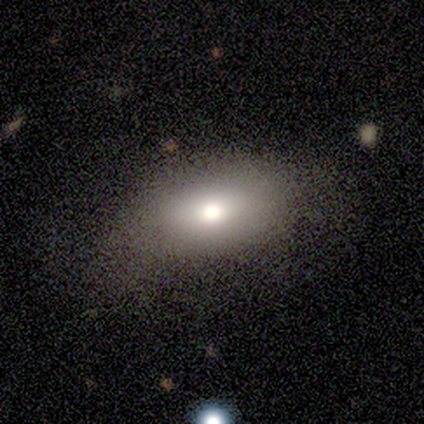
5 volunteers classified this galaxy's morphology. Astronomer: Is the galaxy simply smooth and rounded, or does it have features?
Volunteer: smooth — 80%.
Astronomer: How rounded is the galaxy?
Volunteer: round — 50%, tied with in between at 50%.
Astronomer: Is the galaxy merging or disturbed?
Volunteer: none — 80%.